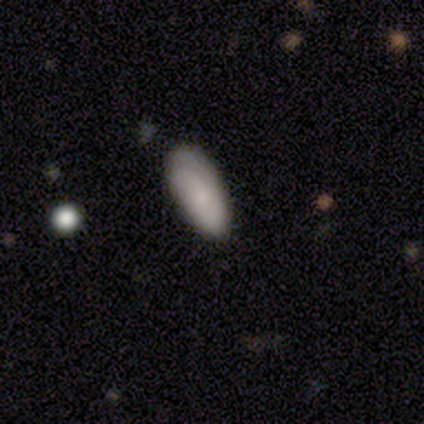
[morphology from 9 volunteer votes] Volunteers were most divided on "smooth or featured": smooth: 56%, featured or disk: 44%, star or artifact: 0%. More confident: how rounded — in between (80%); merging — none (67%).